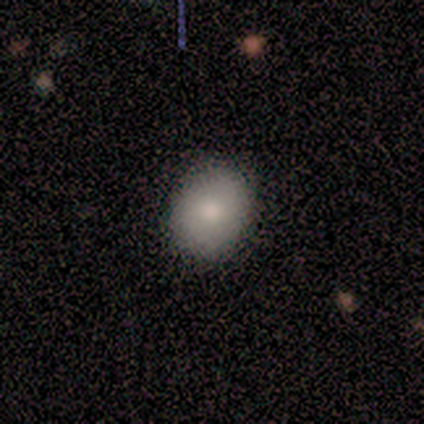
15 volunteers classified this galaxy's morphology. This is clearly a smooth galaxy (80%). How rounded: likely round (67%). Merging: clearly none (100%).